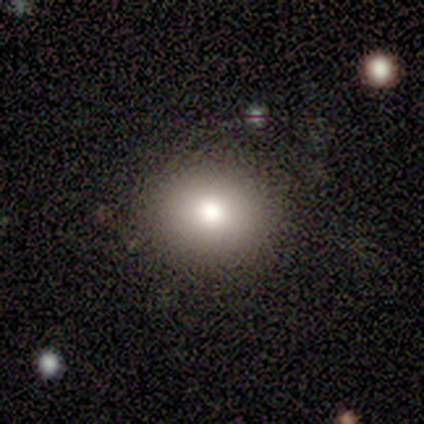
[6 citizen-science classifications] smooth 33% (tied), featured or disk 33% (tied), star or artifact 33% (tied). Down the decision tree: how rounded — round (100%); merging — none (75%).